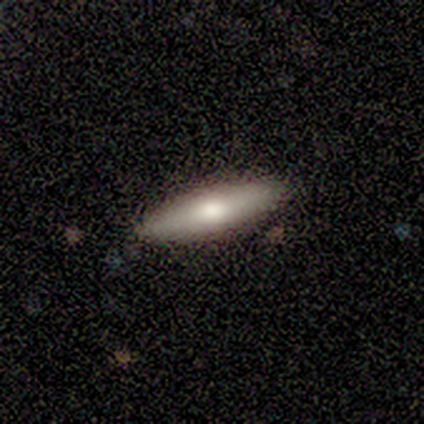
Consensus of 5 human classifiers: Morphology: type=smooth (40%, tied with featured or disk); roundness=in between (50%, tied with cigar-shaped); merging=none (100%).